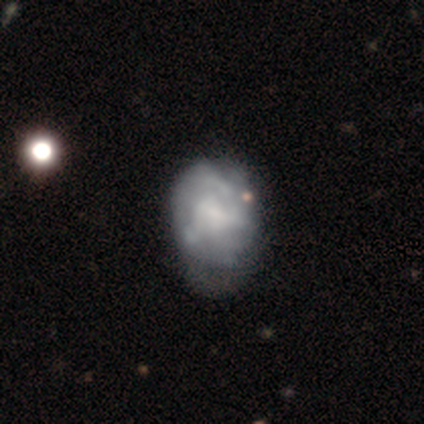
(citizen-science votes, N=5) Smooth or featured? 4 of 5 (80%) said featured or disk. Edge-on disk? 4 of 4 (100%) said no. Bar? 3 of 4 (75%) said no. Spiral arms? 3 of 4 (75%) said no. Bulge size? 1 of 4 (25%, tied with large, small and none) said dominant. Merging? 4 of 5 (80%) said none.